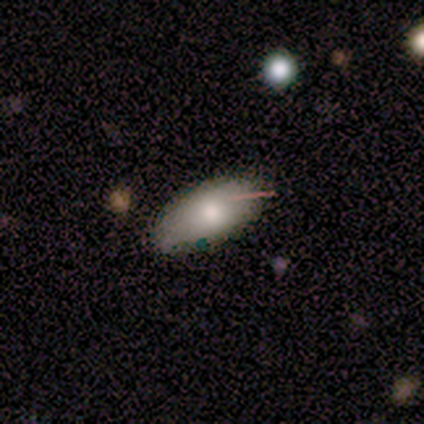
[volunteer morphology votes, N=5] Smooth or featured? 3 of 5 (60%) said smooth. How rounded? 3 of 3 (100%) said in between. Merging? 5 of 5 (100%) said none.